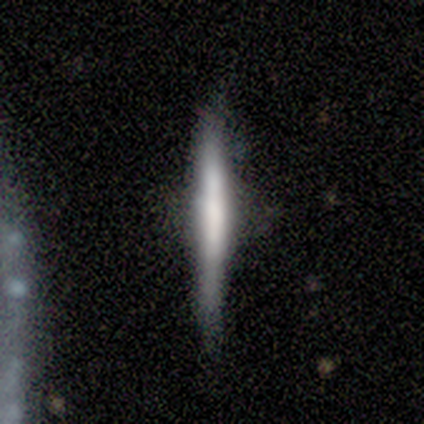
A featured or disk galaxy (60%) viewed edge-on (100%) with no central bulge (100%).

Vote fractions:
- Smooth or featured? featured or disk: 60% / smooth: 20% / star or artifact: 20%
- Edge-on disk? yes: 100% / no: 0%
- Edge-on bulge? none: 100% / boxy: 0% / rounded: 0%
- Merging? none: 100% / minor disturbance: 0% / major disturbance: 0% / merger: 0%